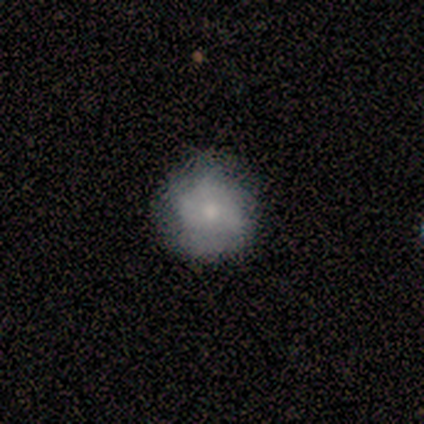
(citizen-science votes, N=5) smooth 80%, featured or disk 20%, star or artifact 0%. Down the decision tree: how rounded — round (100%); merging — none (100%).